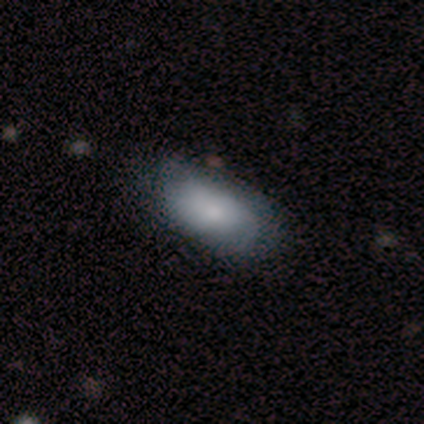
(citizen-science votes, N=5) Overall: smooth (80%). How rounded: in between (75%). Merging: none (60%; minor disturbance 40%).